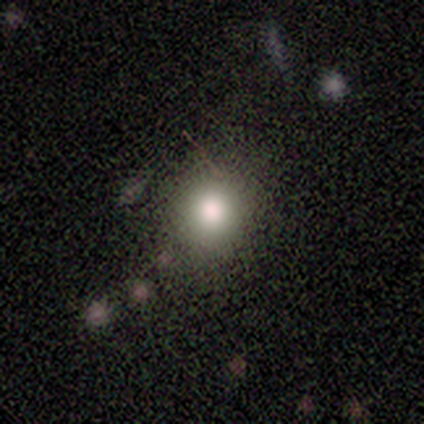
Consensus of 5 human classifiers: Smooth or featured?
  - smooth: 100% *
  - featured or disk: 0%
  - star or artifact: 0%
How rounded?
  - round: 60% *
  - in between: 40%
  - cigar-shaped: 0%
Merging?
  - none: 40% * (tied)
  - minor disturbance: 40% * (tied)
  - major disturbance: 20%
  - merger: 0%